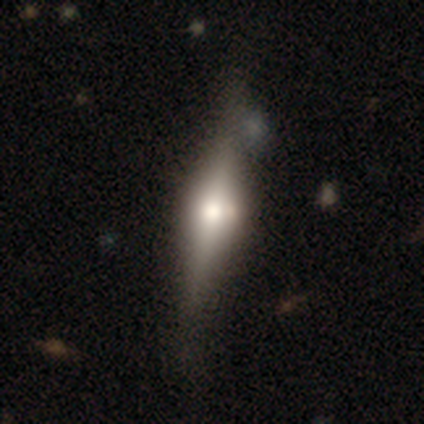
This appears to be a featured or disk galaxy (100%) viewed edge-on (100%) with a rounded central bulge (100%). Merging: minor disturbance (60%).